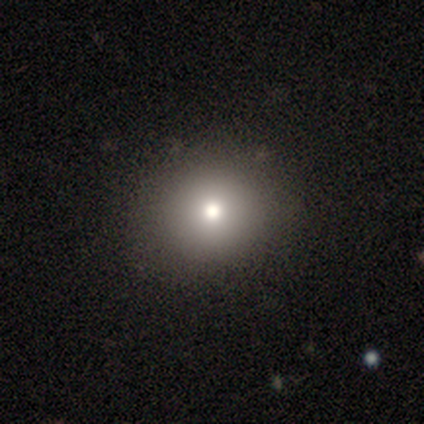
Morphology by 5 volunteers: Overall: smooth (100%). How rounded: round (60%; in between 40%). Merging: none (60%; minor disturbance 40%).